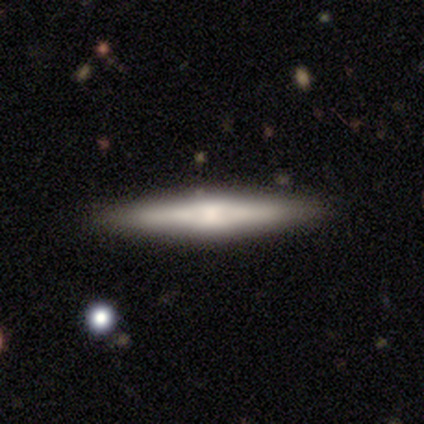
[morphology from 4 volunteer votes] Volunteers were most divided on "edge-on disk": yes: 67%, no: 33%. More confident: edge-on bulge — boxy (100%); merging — none (100%); smooth or featured — featured or disk (75%).